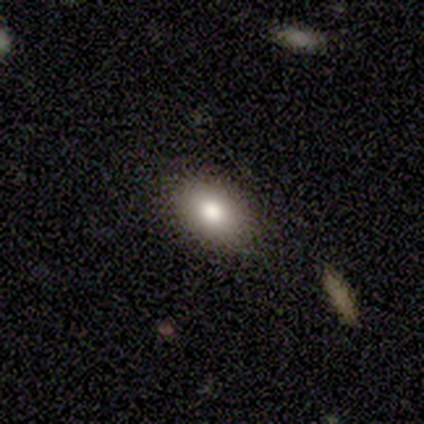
This appears to be a smooth galaxy with no disk features (80%) that is in between round and cigar-shaped (100%). Merging: none (100%).